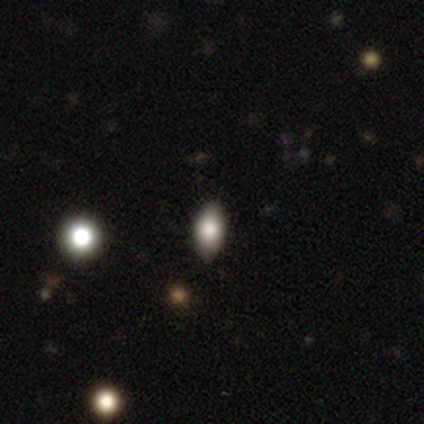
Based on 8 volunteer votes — This appears to be a smooth galaxy with no disk features (88%) that is in between round and cigar-shaped (86%). Merging: none (75%).